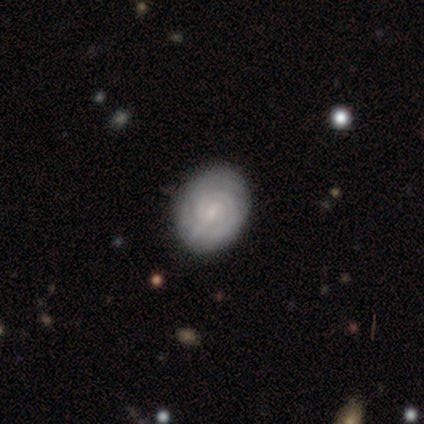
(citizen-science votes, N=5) Smooth or featured? 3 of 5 (60%) said smooth. How rounded? 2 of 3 (67%) said in between. Merging? 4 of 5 (80%) said none.